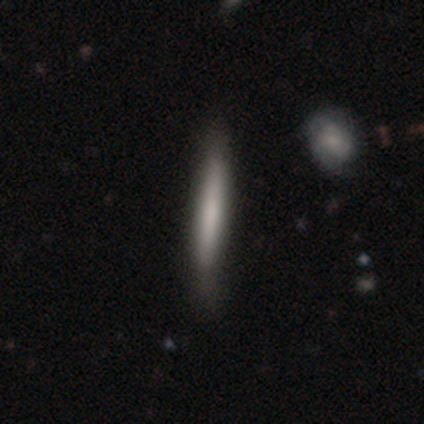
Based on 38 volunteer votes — A smooth galaxy with no disk features (71%) that is cigar-shaped (100%).

Vote fractions:
- Smooth or featured? smooth: 71% / featured or disk: 29% / star or artifact: 0%
- How rounded? cigar-shaped: 100% / round: 0% / in between: 0%
- Merging? none: 55% / minor disturbance: 8% / merger: 3% / major disturbance: 0%